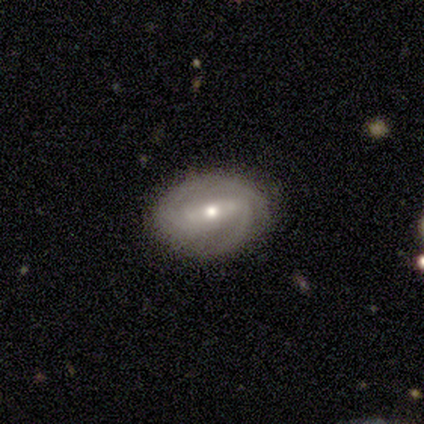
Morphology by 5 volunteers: Smooth or featured: smooth — 40% (tied with featured or disk — 40%)
How rounded: round — 50% (tied with in between — 50%)
Merging: none — 100%